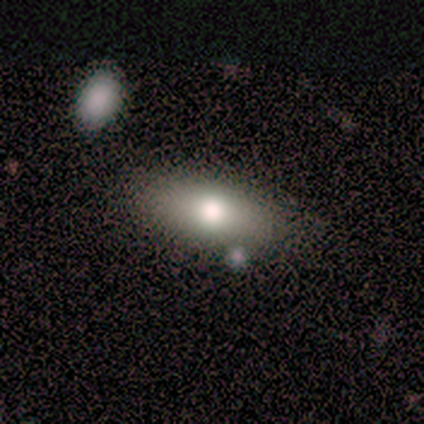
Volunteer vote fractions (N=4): This is clearly a smooth galaxy (100%). How rounded: possibly in between (50%). Merging: likely none (75%).